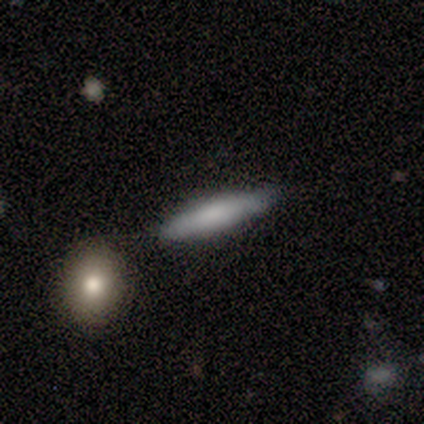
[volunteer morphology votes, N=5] A smooth galaxy with no disk features (40%, tied with featured or disk) that is in between round and cigar-shaped (50%, tied with cigar-shaped).

Vote fractions:
- Smooth or featured? smooth: 40% (tied) / featured or disk: 40% (tied) / star or artifact: 20%
- How rounded? in between: 50% (tied) / cigar-shaped: 50% (tied) / round: 0%
- Merging? none: 100% / minor disturbance: 0% / major disturbance: 0% / merger: 0%